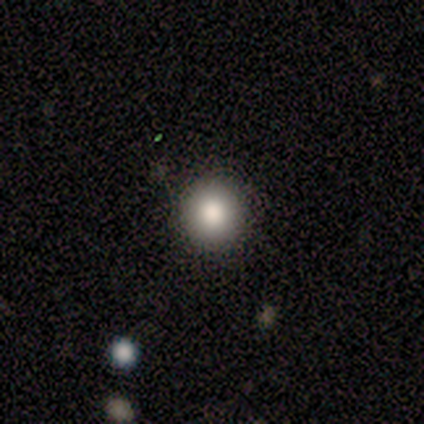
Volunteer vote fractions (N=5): smooth_or_featured: smooth (p=1.00)
how_rounded: round (p=1.00)
merging: none (p=1.00)